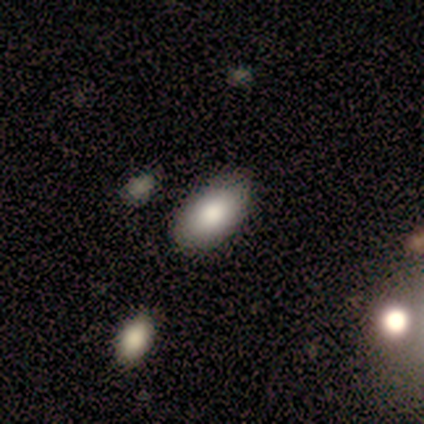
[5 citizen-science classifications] A smooth galaxy with no disk features (80%) that is in between round and cigar-shaped (100%).

Vote fractions:
- Smooth or featured? smooth: 80% / featured or disk: 20% / star or artifact: 0%
- How rounded? in between: 100% / round: 0% / cigar-shaped: 0%
- Merging? none: 80% / minor disturbance: 20% / major disturbance: 0% / merger: 0%